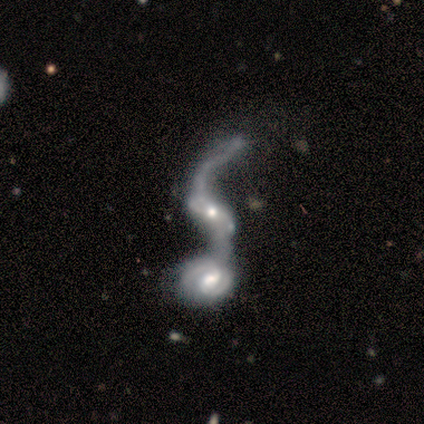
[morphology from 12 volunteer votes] Q: Smooth or featured?
A: featured or disk (100%)
Q: Edge-on disk?
A: no (83%); runner-up: yes (17%)
Q: Bar?
A: no (40%); runner-up: strong (30%)
Q: Spiral arms?
A: yes (70%); runner-up: no (30%)
Q: Spiral winding?
A: loose (86%); runner-up: medium (14%)
Q: Spiral arm count?
A: 2 (71%); runner-up: 1 (29%)
Q: Bulge size?
A: small (50%); runner-up: moderate (30%)
Q: Merging?
A: merger (92%); runner-up: none (8%)